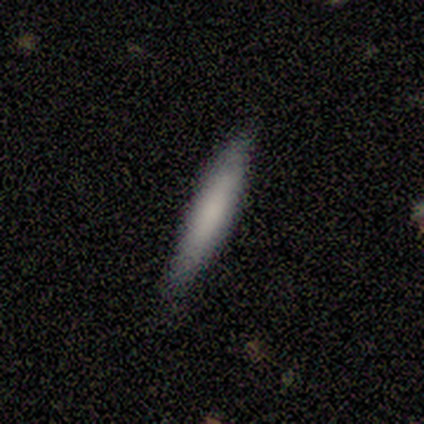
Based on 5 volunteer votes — Smooth or featured?
  - smooth: 100% *
  - featured or disk: 0%
  - star or artifact: 0%
How rounded?
  - cigar-shaped: 100% *
  - round: 0%
  - in between: 0%
Merging?
  - none: 80% *
  - minor disturbance: 20%
  - major disturbance: 0%
  - merger: 0%